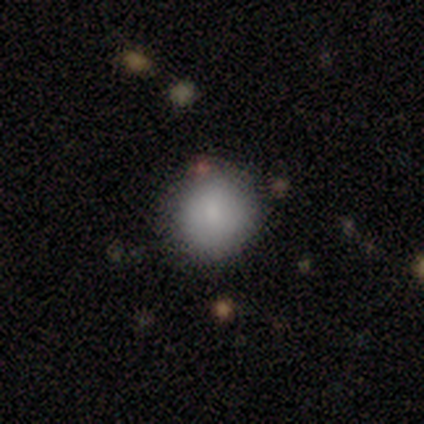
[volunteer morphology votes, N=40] A smooth galaxy with no disk features (82%) that is round (94%).

Vote fractions:
- Smooth or featured? smooth: 82% / star or artifact: 12% / featured or disk: 5%
- How rounded? round: 94% / in between: 6% / cigar-shaped: 0%
- Merging? none: 86% / major disturbance: 9% / minor disturbance: 6% / merger: 0%